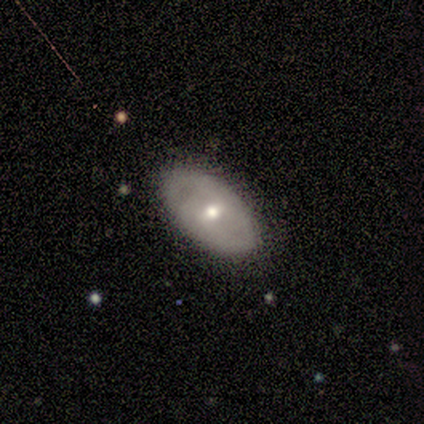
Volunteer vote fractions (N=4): Smooth or featured?
  - featured or disk: 75% *
  - smooth: 25%
  - star or artifact: 0%
Edge-on disk?
  - no: 100% *
  - yes: 0%
Bar?
  - weak: 67% *
  - no: 33%
  - strong: 0%
Spiral arms?
  - no: 100% *
  - yes: 0%
Bulge size?
  - small: 67% *
  - moderate: 33%
  - dominant: 0%
  - large: 0%
  - none: 0%
Merging?
  - none: 50% * (tied)
  - minor disturbance: 50% * (tied)
  - major disturbance: 0%
  - merger: 0%